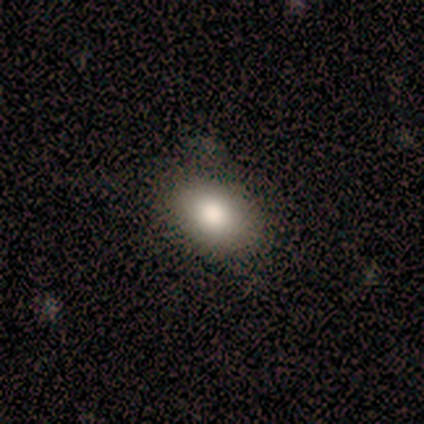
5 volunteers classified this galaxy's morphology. smooth 100%, featured or disk 0%, star or artifact 0%. Down the decision tree: how rounded — in between (100%); merging — none (100%).